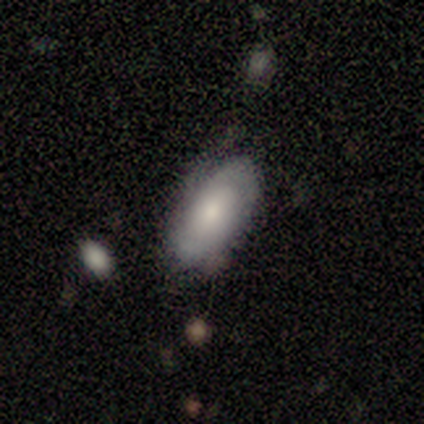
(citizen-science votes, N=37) Smooth or featured?
  - featured or disk: 57% *
  - smooth: 43%
  - star or artifact: 0%
Edge-on disk?
  - no: 95% *
  - yes: 5%
Bar?
  - no: 65% *
  - weak: 30%
  - strong: 5%
Spiral arms?
  - yes: 70% *
  - no: 30%
Spiral winding?
  - tight: 50% *
  - medium: 36%
  - loose: 14%
Spiral arm count?
  - 2: 50% *
  - can't tell: 29%
  - 3: 21%
  - 1: 0%
  - 4: 0%
  - more than 4: 0%
Bulge size?
  - moderate: 40% * (tied)
  - small: 40% * (tied)
  - large: 15%
  - dominant: 5%
  - none: 0%
Merging?
  - none: 59% *
  - minor disturbance: 22%
  - major disturbance: 11%
  - merger: 8%